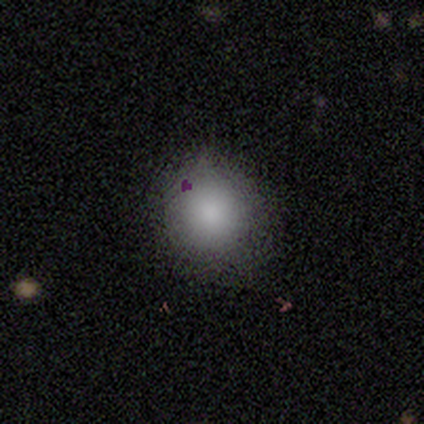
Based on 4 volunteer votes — Overall: smooth (75%). How rounded: round (100%). Merging: none (50%, tied with minor disturbance).